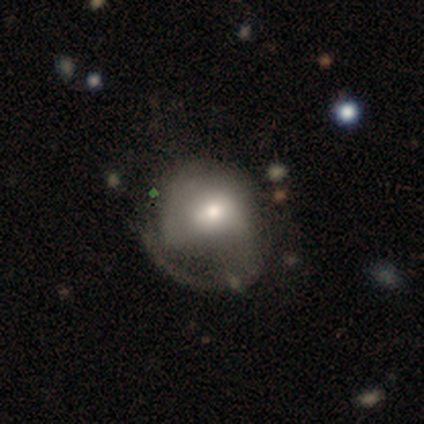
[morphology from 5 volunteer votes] Smooth or featured? smooth (60%)
How rounded? round (100%)
Merging? major disturbance (60%)